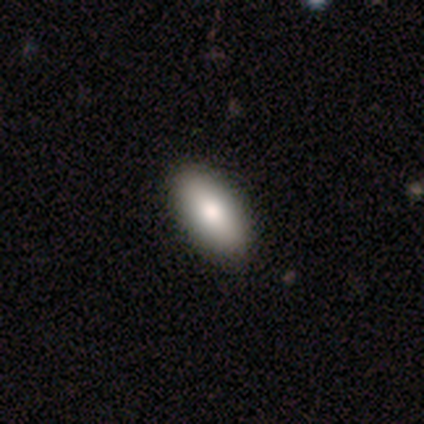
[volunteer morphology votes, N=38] Q: Smooth or featured?
A: smooth (76%); runner-up: featured or disk (21%)
Q: How rounded?
A: in between (90%); runner-up: cigar-shaped (7%)
Q: Merging?
A: none (73%)